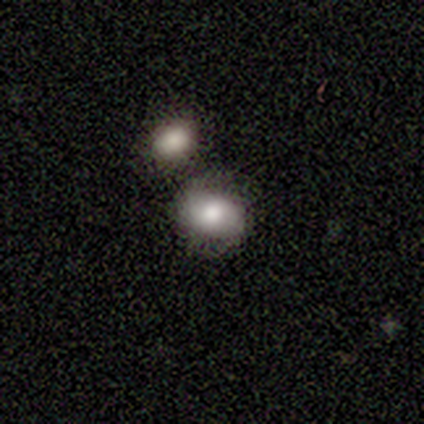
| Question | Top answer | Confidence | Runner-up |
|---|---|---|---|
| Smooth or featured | smooth | 100% | — |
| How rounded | in between | 100% | — |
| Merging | none | 60% | minor disturbance (40%) |